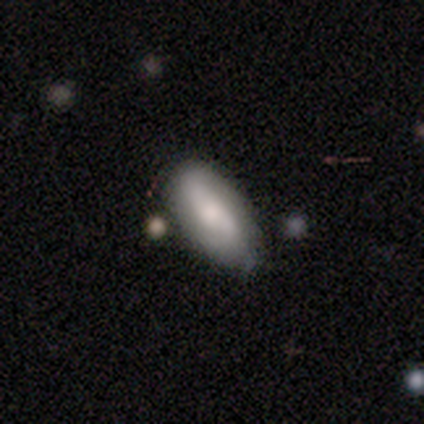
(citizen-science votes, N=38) Smooth or featured? 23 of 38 (61%) said smooth. How rounded? 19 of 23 (83%) said in between. Merging? 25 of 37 (68%) said none.